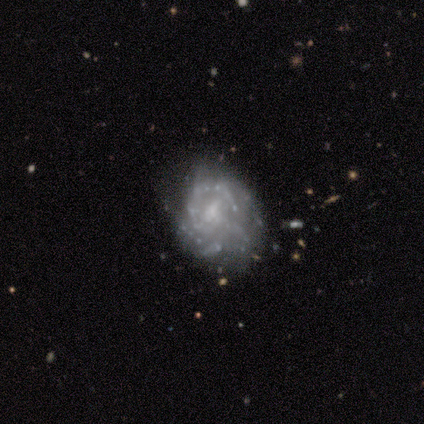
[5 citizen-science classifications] smooth_or_featured: featured or disk (p=1.00)
disk_edge_on: no (p=1.00)
bar: no (p=0.80) [alt: weak p=0.20]
has_spiral_arms: yes (p=0.80) [alt: no p=0.20]
spiral_winding: tight (p=1.00)
spiral_arm_count: can't tell (p=0.75) [alt: 2 p=0.25]
bulge_size: small (p=0.60) [alt: none p=0.40]
merging: none (p=0.60) [alt: minor disturbance p=0.40]